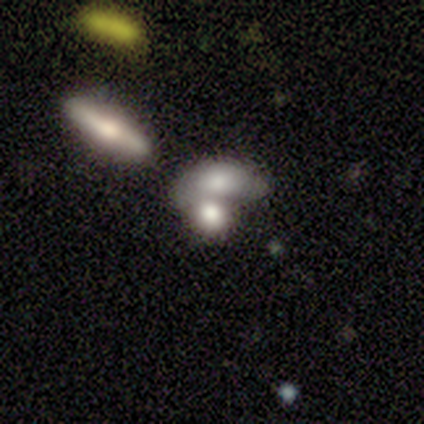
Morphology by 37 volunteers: This appears to be a smooth galaxy with no disk features (78%) that is in between round and cigar-shaped (76%). Merging: merger (76%).